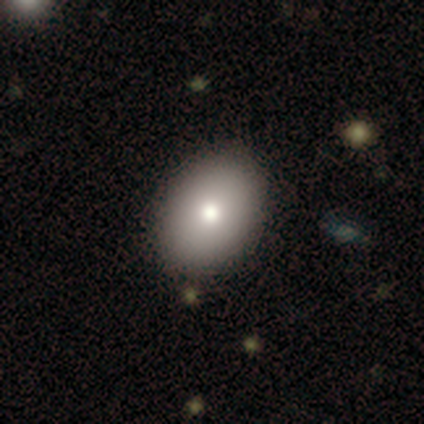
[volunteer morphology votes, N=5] A smooth galaxy with no disk features (100%) that is in between round and cigar-shaped (80%).

Vote fractions:
- Smooth or featured? smooth: 100% / featured or disk: 0% / star or artifact: 0%
- How rounded? in between: 80% / round: 20% / cigar-shaped: 0%
- Merging? none: 100% / minor disturbance: 0% / major disturbance: 0% / merger: 0%